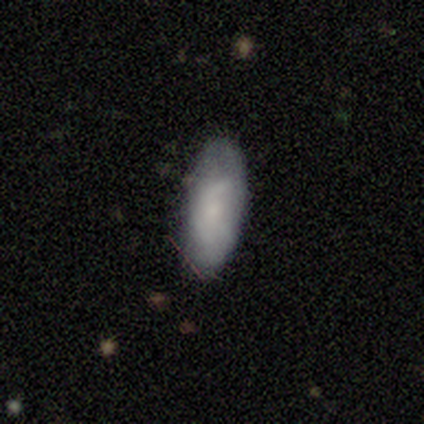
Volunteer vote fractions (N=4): smooth-or-featured: smooth: 50% (tied) | featured or disk: 50% (tied) | star or artifact: 0%
  how-rounded: in between: 100% | round: 0% | cigar-shaped: 0%
  merging: none: 75% | minor disturbance: 25% | major disturbance: 0% | merger: 0%